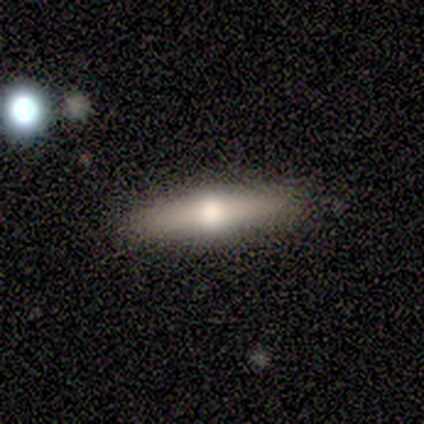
Volunteers were most divided on "smooth or featured" (2-way tie): smooth: 50%, featured or disk: 50%, star or artifact: 0%; "how rounded" (2-way tie): in between: 50%, cigar-shaped: 50%, round: 0%. More confident: merging — none (100%).